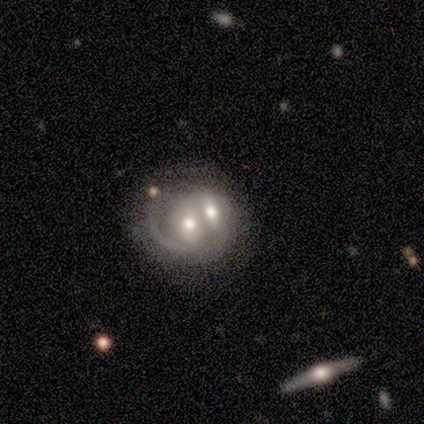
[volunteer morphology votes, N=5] A featured or disk galaxy (60%) with no bar (67%), 2 (50%, tied with can't tell) medium (50%, tied with loose) spiral arms (67%) and a moderate central bulge (67%). Merging: merger (60%).